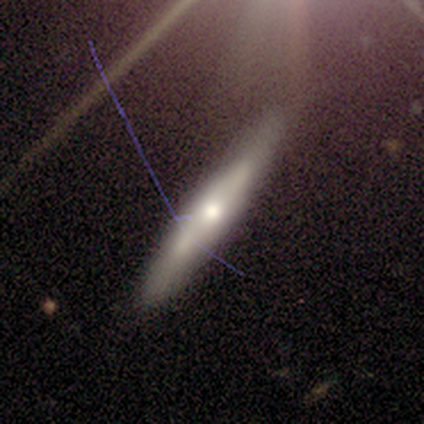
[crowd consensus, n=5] A featured or disk galaxy (100%) viewed edge-on (80%) with a rounded central bulge (100%). Merging: none (80%).